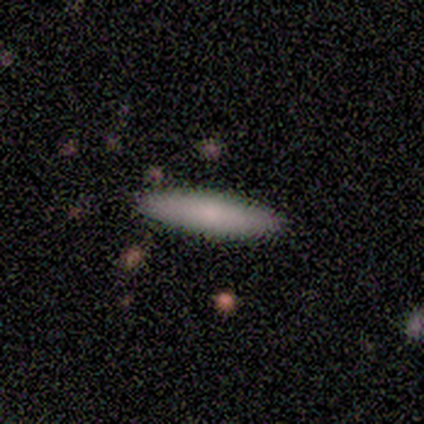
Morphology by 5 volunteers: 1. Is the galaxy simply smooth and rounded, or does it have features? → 60% smooth, 40% featured or disk, 0% star or artifact.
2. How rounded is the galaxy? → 100% cigar-shaped, 0% round, 0% in between.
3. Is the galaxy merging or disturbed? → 100% none, 0% minor disturbance, 0% major disturbance, 0% merger.